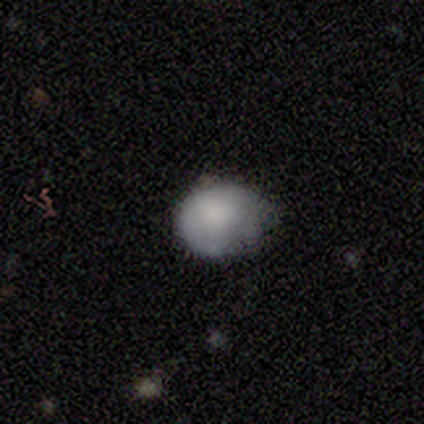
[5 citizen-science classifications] Smooth or featured: smooth — 80% (featured or disk — 20%)
How rounded: round — 50% (tied with in between — 50%)
Merging: none — 40% (tied with minor disturbance — 40%)